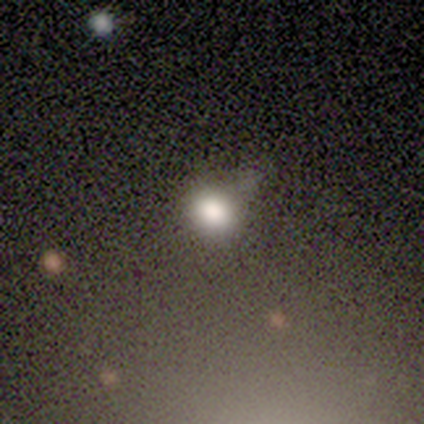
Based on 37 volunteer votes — smooth_or_featured: smooth (p=0.76) [alt: star or artifact p=0.14]
how_rounded: round (p=0.71) [alt: in between p=0.29]
merging: minor disturbance (p=0.44) [alt: none p=0.38]